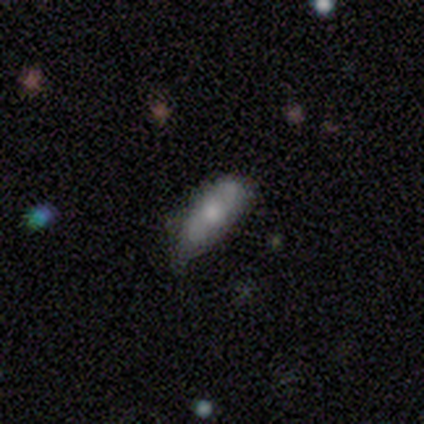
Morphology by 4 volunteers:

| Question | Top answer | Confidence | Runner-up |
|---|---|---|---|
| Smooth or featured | smooth | 50% | tied: featured or disk (50%) |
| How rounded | in between | 100% | — |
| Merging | none | 50% | tied: minor disturbance (50%) |